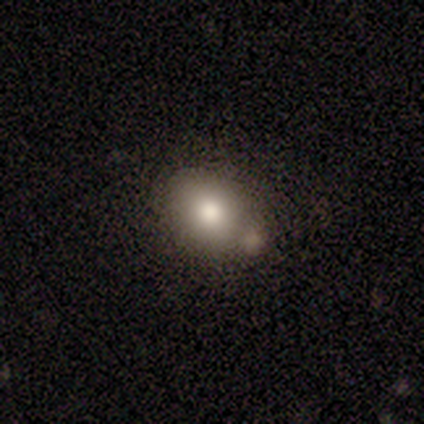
smooth-or-featured: smooth: 100% | featured or disk: 0% | star or artifact: 0%
  how-rounded: in between: 80% | round: 20% | cigar-shaped: 0%
  merging: none: 60% | minor disturbance: 20% | major disturbance: 20% | merger: 0%